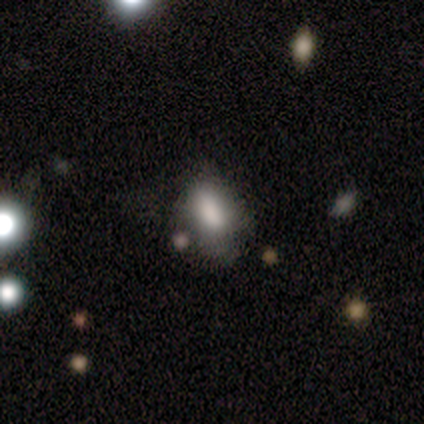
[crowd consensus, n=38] smooth_or_featured: smooth (p=0.76) [alt: star or artifact p=0.16]
how_rounded: in between (p=0.97) [alt: round p=0.03]
merging: none (p=0.59) [alt: minor disturbance p=0.31]